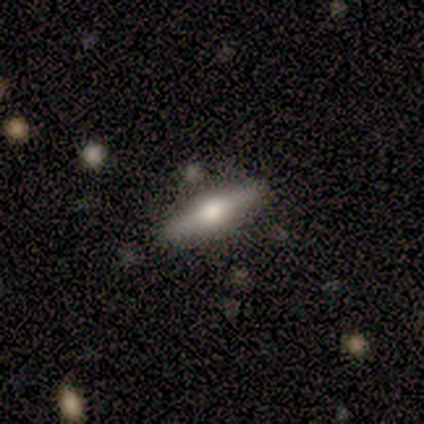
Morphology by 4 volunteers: A featured or disk galaxy (100%) viewed edge-on (100%) with a rounded central bulge (100%). Merging: none (100%).